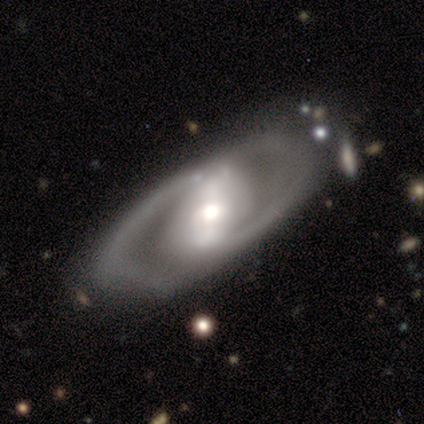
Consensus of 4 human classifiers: Smooth or featured? 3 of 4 (75%) said featured or disk. Edge-on disk? 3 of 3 (100%) said no. Bar? 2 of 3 (67%) said strong. Spiral arms? 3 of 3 (100%) said yes. Spiral winding? 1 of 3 (33%, tied with medium and loose) said tight. Spiral arm count? 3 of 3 (100%) said 2. Bulge size? 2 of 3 (67%) said moderate. Merging? 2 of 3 (67%) said none.